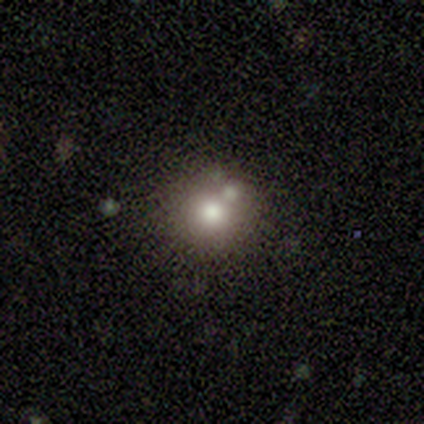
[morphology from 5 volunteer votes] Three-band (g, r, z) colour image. It shows a smooth galaxy with no disk features (80%) that is round (100%). Merging: none (100%).